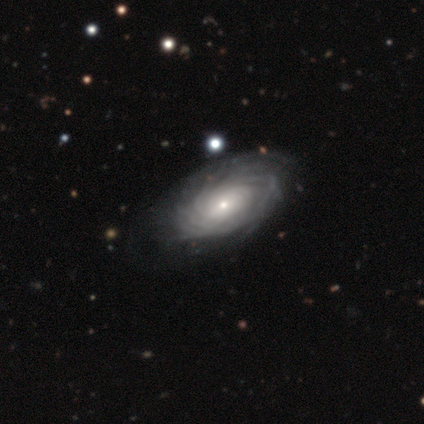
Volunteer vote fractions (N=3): Smooth or featured? featured or disk (67%)
Edge-on disk? no (100%)
Bar? weak (50%, tied with no)
Spiral arms? yes (50%, tied with no)
Spiral winding? tight (100%)
Spiral arm count? 4 (100%)
Bulge size? small (100%)
Merging? none (67%)